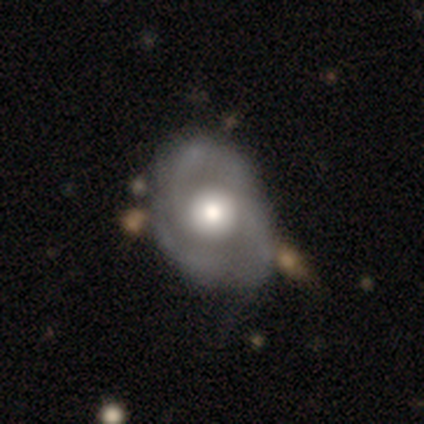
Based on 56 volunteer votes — This is likely a featured or disk galaxy (71%). It is clearly not viewed edge-on (92%). Bar: clearly no (89%). Spiral arm pattern: likely yes (78%). Spiral arm count: marginally 2 (34%, tied with 3). Spiral winding: marginally tight (45%). Central bulge: possibly large (49%). Merging: possibly none (55%).